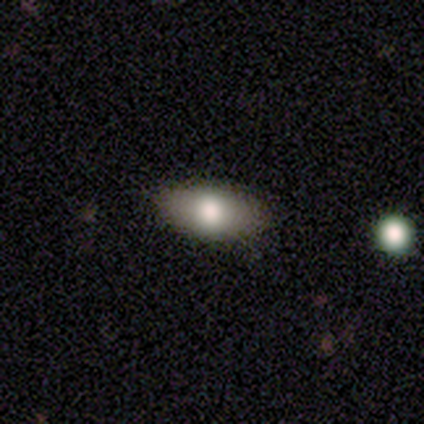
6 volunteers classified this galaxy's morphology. This appears to be a smooth galaxy with no disk features (83%) that is in between round and cigar-shaped (100%). Merging: none (100%).